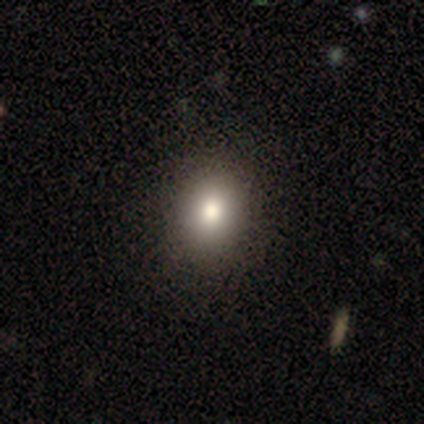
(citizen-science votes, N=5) Overall: smooth (60%; featured or disk 40%). How rounded: in between (100%). Merging: none (80%).